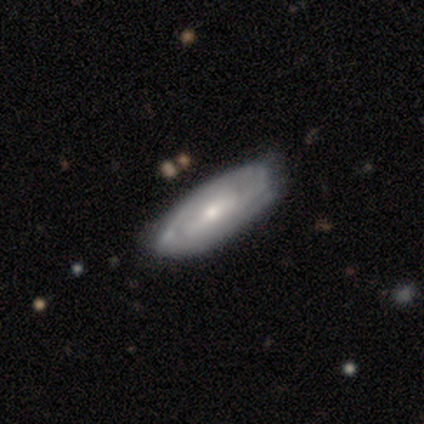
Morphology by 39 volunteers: Overall: featured or disk (79%). Edge-on disk: no (100%). Bar: no (48%; weak 32%). Spiral arms: yes (94%). Spiral arm count: can't tell (48%; 2 24%). Spiral winding: tight (59%; medium 28%). Bulge size: small (58%; moderate 39%). Merging: none (46%; minor disturbance 23%).